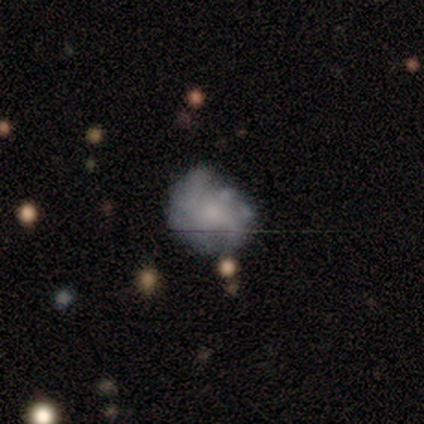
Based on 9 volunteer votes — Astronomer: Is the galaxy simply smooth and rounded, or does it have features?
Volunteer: featured or disk — 78%.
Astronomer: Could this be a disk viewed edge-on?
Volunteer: no — 100%.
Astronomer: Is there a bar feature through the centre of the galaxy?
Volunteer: no — 71%.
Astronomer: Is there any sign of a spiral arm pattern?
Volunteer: yes — 57% (runner-up: no, 43%).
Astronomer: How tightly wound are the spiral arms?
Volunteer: loose — 75%.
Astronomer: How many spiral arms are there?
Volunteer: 2 — 75%.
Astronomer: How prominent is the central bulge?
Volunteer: moderate — 57%.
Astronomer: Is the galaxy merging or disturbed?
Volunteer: none — 44% (runner-up: minor disturbance, 33%).